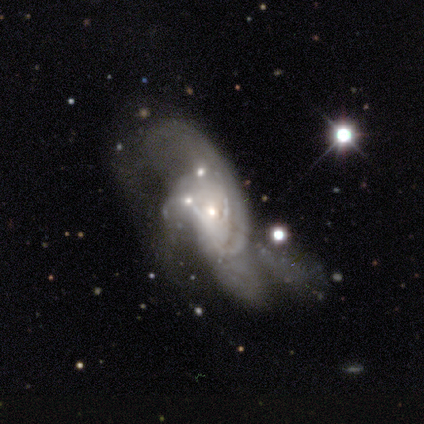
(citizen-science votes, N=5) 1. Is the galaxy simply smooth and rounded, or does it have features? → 80% featured or disk, 20% star or artifact, 0% smooth.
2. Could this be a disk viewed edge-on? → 100% no, 0% yes.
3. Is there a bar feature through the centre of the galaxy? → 100% no, 0% strong, 0% weak.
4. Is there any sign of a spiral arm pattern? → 75% yes, 25% no.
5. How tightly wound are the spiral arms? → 67% loose, 33% tight, 0% medium.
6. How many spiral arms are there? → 33% 1 (tied), 33% 2 (tied), 33% 3 (tied), 0% 4, 0% more than 4, 0% can't tell.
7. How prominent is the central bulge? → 75% small, 25% none, 0% dominant, 0% large, 0% moderate.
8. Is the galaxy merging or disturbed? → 50% major disturbance (tied), 50% merger (tied), 0% none, 0% minor disturbance.